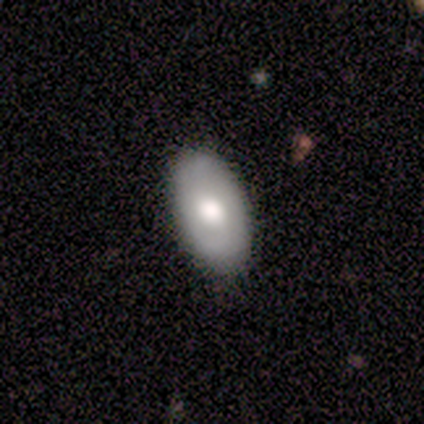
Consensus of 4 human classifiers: smooth 50% (tied), featured or disk 50% (tied), star or artifact 0%. Down the decision tree: how rounded — in between (100%); merging — none (75%).